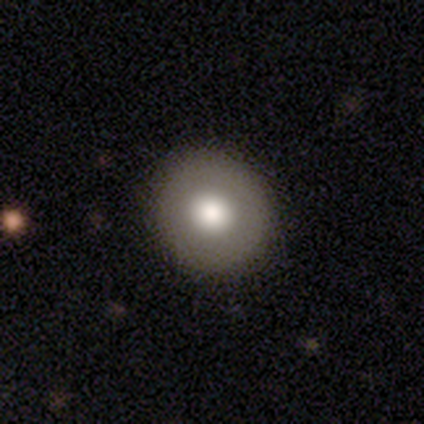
This is clearly a smooth galaxy (80%). How rounded: clearly round (100%). Merging: clearly none (100%).